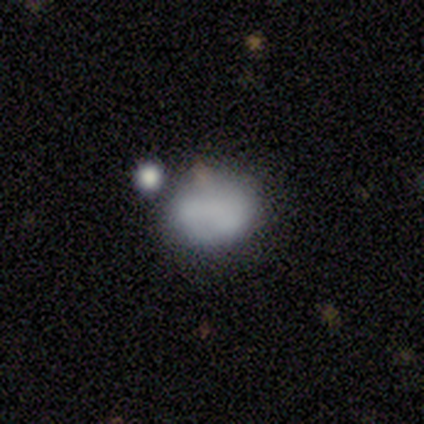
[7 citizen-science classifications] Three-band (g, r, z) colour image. It shows a smooth galaxy with no disk features (57%) that is round (75%). Merging: minor disturbance (50%).